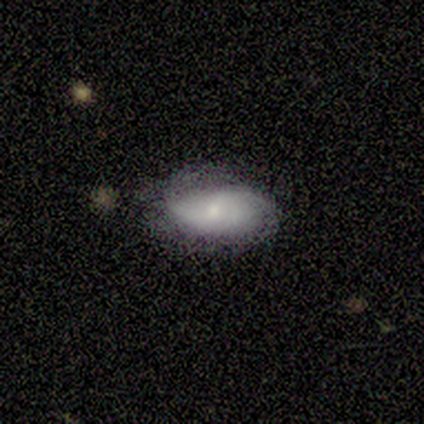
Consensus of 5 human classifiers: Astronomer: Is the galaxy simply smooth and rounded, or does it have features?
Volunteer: featured or disk — 80%.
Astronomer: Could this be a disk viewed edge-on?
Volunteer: no — 75%.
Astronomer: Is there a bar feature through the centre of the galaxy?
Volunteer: no — 67%.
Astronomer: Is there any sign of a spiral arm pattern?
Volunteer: yes — 67%.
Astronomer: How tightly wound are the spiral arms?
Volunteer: medium — 50%, tied with loose at 50%.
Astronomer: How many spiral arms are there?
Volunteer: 2 — 100%.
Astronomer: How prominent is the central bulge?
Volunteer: small — 100%.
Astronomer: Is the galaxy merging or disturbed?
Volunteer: none — 60% (runner-up: minor disturbance, 40%).